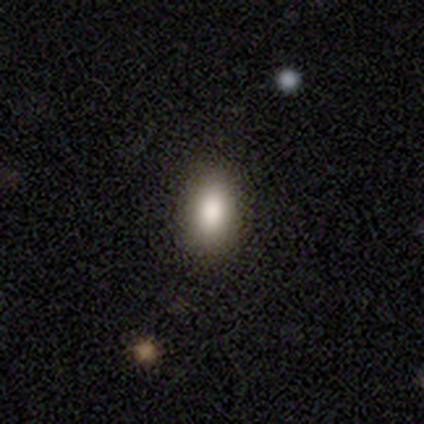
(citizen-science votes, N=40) Smooth or featured: smooth — 85% (featured or disk — 12%)
How rounded: in between — 88% (round — 6%)
Merging: none — 92% (minor disturbance — 8%)